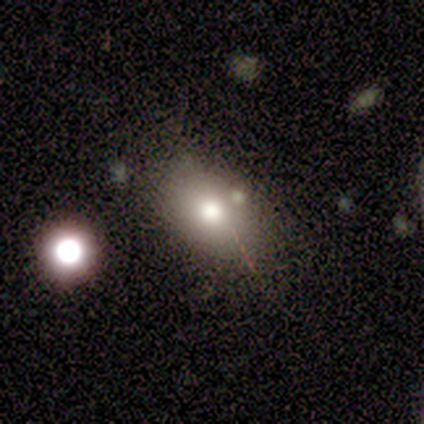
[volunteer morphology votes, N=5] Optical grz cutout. It shows a smooth galaxy with no disk features (40%, tied with featured or disk) that is in between round and cigar-shaped (100%). Merging: none (75%).